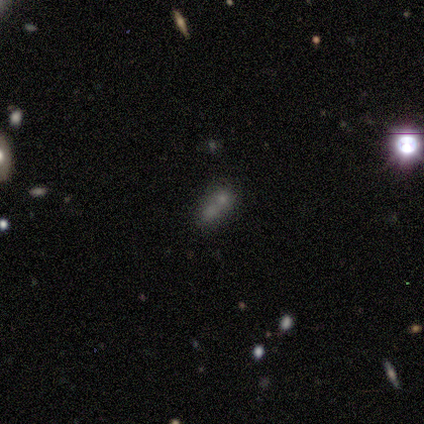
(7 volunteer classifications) smooth_or_featured: smooth (p=0.57) [alt: star or artifact p=0.29]
how_rounded: round (p=0.50) [tied with: in between p=0.50]
merging: merger (p=0.60) [alt: none p=0.40]